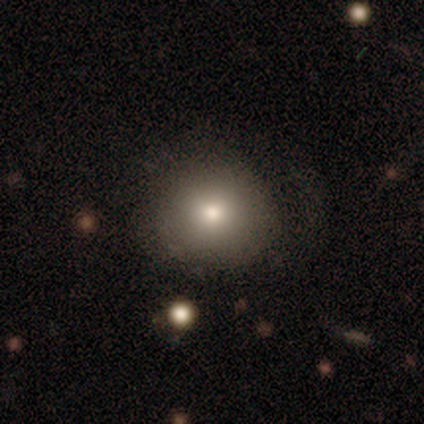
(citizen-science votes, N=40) A smooth galaxy with no disk features (75%) that is round (97%).

Vote fractions:
- Smooth or featured? smooth: 75% / featured or disk: 15% / star or artifact: 10%
- How rounded? round: 97% / in between: 3% / cigar-shaped: 0%
- Merging? none: 78% / minor disturbance: 11% / major disturbance: 11% / merger: 0%